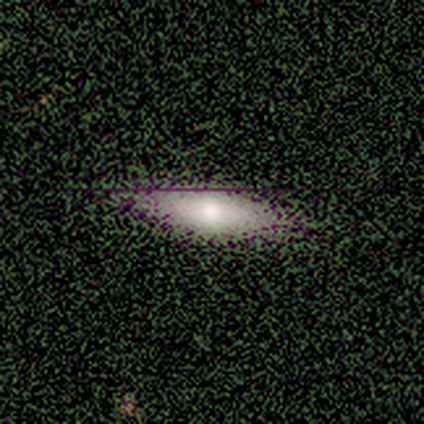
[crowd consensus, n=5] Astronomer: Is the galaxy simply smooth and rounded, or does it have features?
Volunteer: smooth — 100%.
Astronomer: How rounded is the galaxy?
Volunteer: in between — 80%.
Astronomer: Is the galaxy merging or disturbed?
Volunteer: none — 100%.